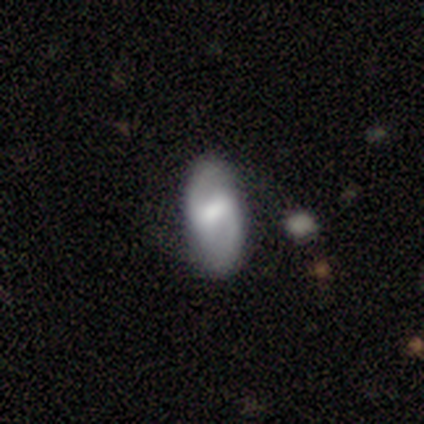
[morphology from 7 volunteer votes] A featured or disk galaxy (86%) with a strong bar (60%), 2 (100%) loose (50%) spiral arms (80%) and a moderate central bulge (60%). Merging: none (86%).